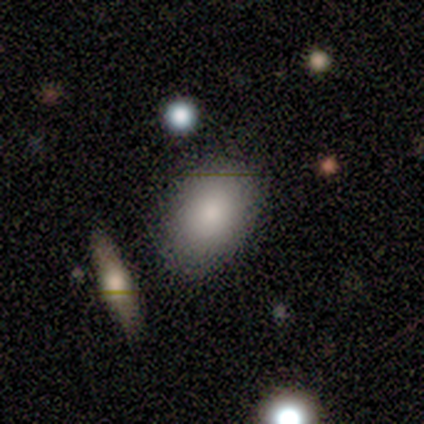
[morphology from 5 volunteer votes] This appears to be a smooth galaxy with no disk features (80%) that is in between round and cigar-shaped (75%). Merging: none (100%).